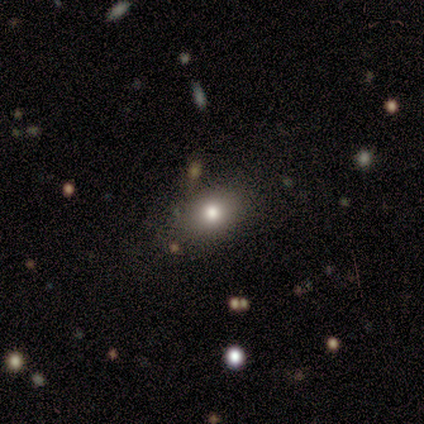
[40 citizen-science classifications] smooth-or-featured: smooth: 90% | featured or disk: 5% | star or artifact: 5%
  how-rounded: in between: 64% | round: 33% | cigar-shaped: 3%
  merging: none: 84% | minor disturbance: 8% | merger: 5% | major disturbance: 3%